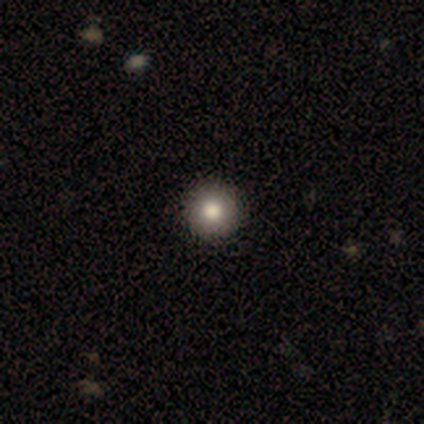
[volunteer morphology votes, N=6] type=smooth (83%); roundness=round (100%); merging=none (100%).